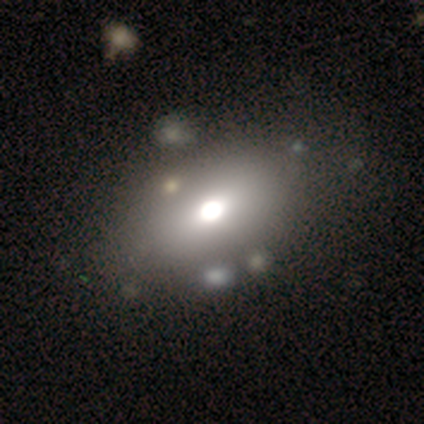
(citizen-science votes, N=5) smooth-or-featured: smooth: 100% | featured or disk: 0% | star or artifact: 0%
  how-rounded: in between: 80% | round: 20% | cigar-shaped: 0%
  merging: none: 60% | minor disturbance: 20% | merger: 20% | major disturbance: 0%